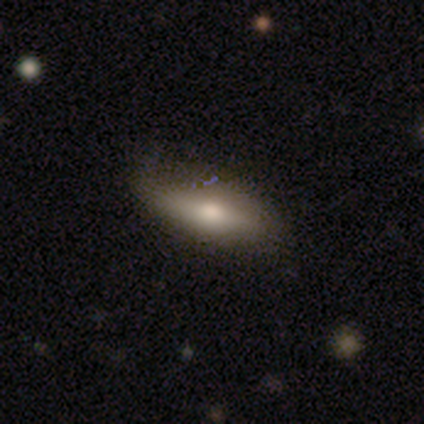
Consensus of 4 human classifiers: Smooth or featured?
  - smooth: 100% *
  - featured or disk: 0%
  - star or artifact: 0%
How rounded?
  - in between: 50% * (tied)
  - cigar-shaped: 50% * (tied)
  - round: 0%
Merging?
  - none: 75% *
  - minor disturbance: 25%
  - major disturbance: 0%
  - merger: 0%